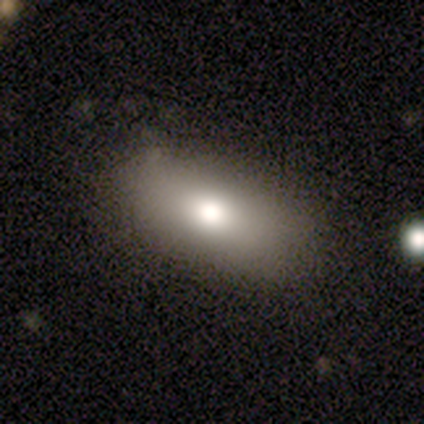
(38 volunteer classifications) Smooth or featured? smooth (68%)
How rounded? in between (88%)
Merging? none (68%)